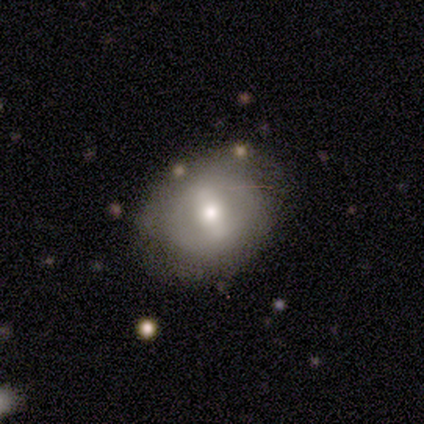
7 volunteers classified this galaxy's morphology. This is likely a featured or disk galaxy (71%). It is clearly not viewed edge-on (80%). Bar: possibly strong (50%). Spiral arm pattern: likely no (75%). Central bulge: possibly moderate (50%). Merging: clearly none (100%).